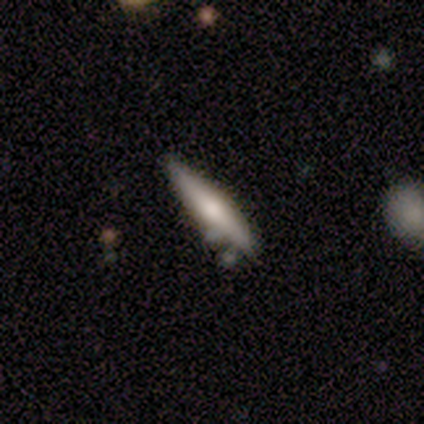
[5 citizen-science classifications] smooth-or-featured: smooth: 80% | featured or disk: 20% | star or artifact: 0%
  how-rounded: cigar-shaped: 100% | round: 0% | in between: 0%
  merging: none: 80% | merger: 20% | minor disturbance: 0% | major disturbance: 0%